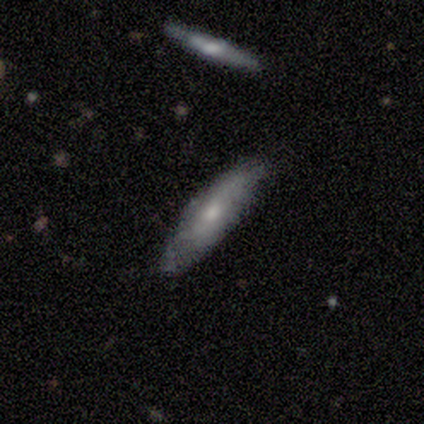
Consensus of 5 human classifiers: Morphology: type=smooth (60%); roundness=in between (67%); merging=none (100%).